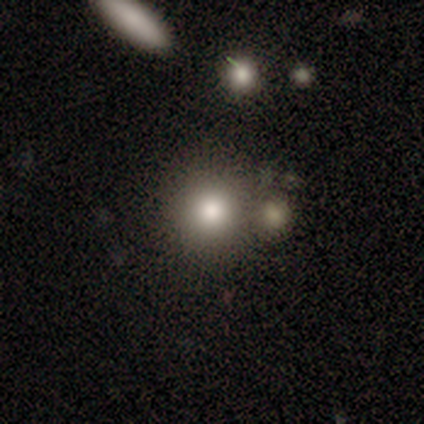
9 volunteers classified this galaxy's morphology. This is clearly a smooth galaxy (89%). How rounded: clearly round (100%). Merging: likely none (78%).